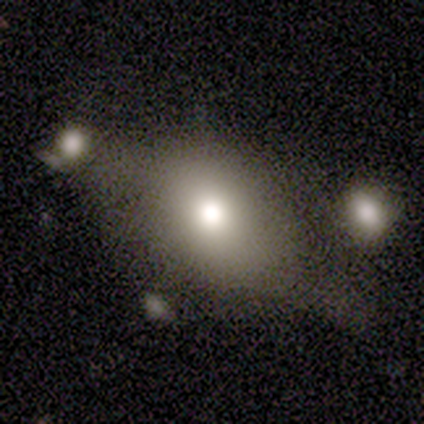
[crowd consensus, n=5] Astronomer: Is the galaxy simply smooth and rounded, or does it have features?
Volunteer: smooth — 80%.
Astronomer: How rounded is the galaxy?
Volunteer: in between — 100%.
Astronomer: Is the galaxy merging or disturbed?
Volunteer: none — 60%.